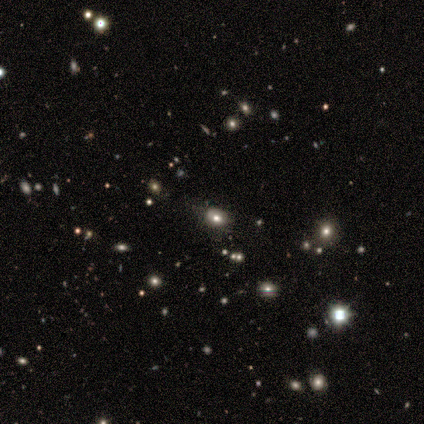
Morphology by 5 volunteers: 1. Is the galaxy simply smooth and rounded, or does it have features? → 60% star or artifact, 40% smooth, 0% featured or disk.